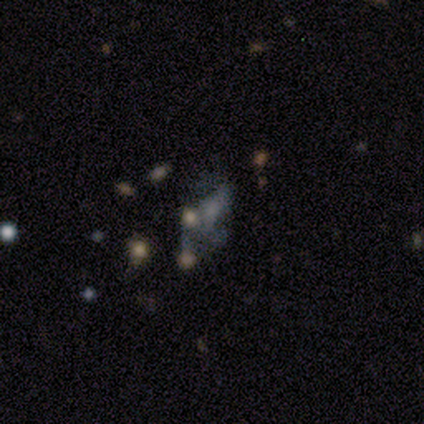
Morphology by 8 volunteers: star or artifact 50%, featured or disk 38%, smooth 12%.